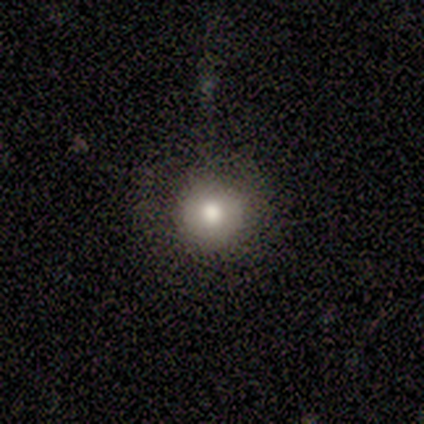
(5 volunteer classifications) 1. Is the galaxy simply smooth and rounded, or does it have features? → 80% smooth, 20% star or artifact, 0% featured or disk.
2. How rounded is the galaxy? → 100% round, 0% in between, 0% cigar-shaped.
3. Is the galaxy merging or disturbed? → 75% minor disturbance, 25% none, 0% major disturbance, 0% merger.